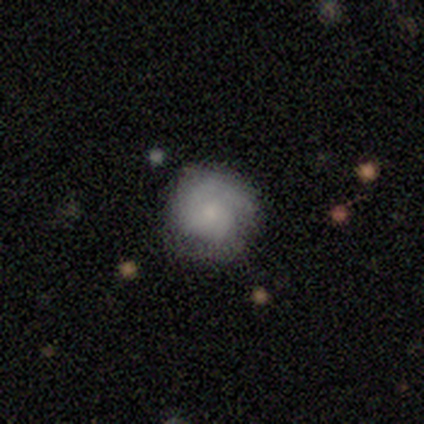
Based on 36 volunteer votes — Q: Smooth or featured?
A: smooth (50%); runner-up: featured or disk (39%)
Q: How rounded?
A: round (94%); runner-up: in between (6%)
Q: Merging?
A: none (75%); runner-up: minor disturbance (22%)